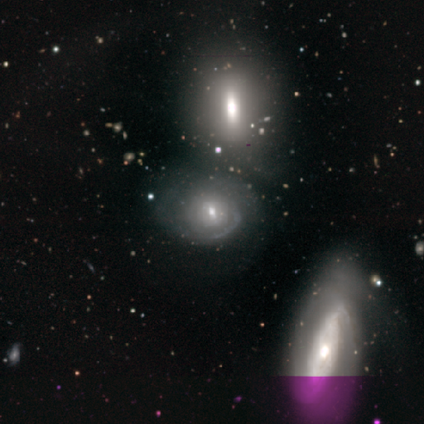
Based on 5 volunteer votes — Morphology: type=featured or disk (80%); edge-on=no (100%); bar=no (100%); spiral arms=yes (75%); winding=tight (100%); arm count=can't tell (100%); bulge=moderate (75%); merging=merger (60%).